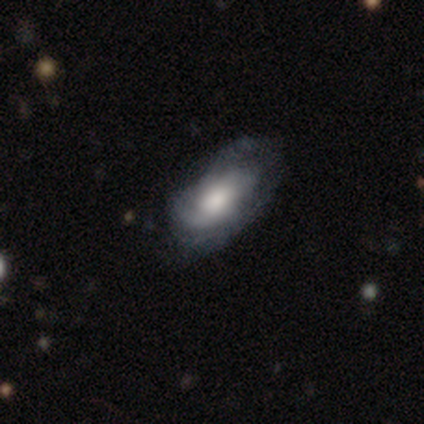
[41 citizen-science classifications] A featured or disk galaxy (73%) with no bar (67%), medium (43%) spiral arms (93%) and a moderate central bulge (50%). Merging: none (54%).